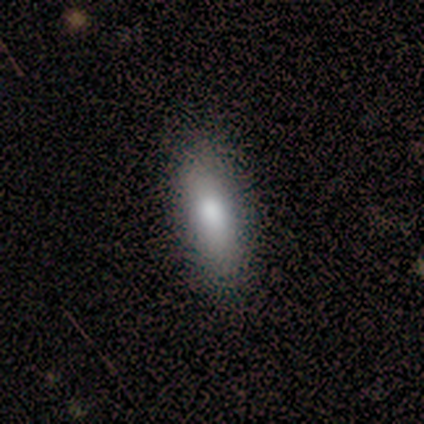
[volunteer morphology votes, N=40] This is clearly a smooth galaxy (80%). How rounded: likely in between (69%). Merging: clearly none (86%).